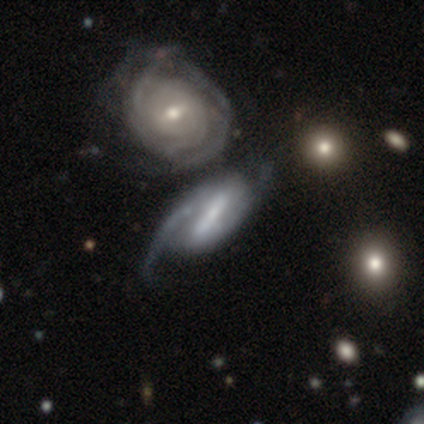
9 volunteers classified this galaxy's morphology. This appears to be a featured or disk galaxy (89%) with a strong bar (62%), tight (67%) spiral arms (75%) and a small central bulge (50%). Merging: minor disturbance (33%, tied with major disturbance).